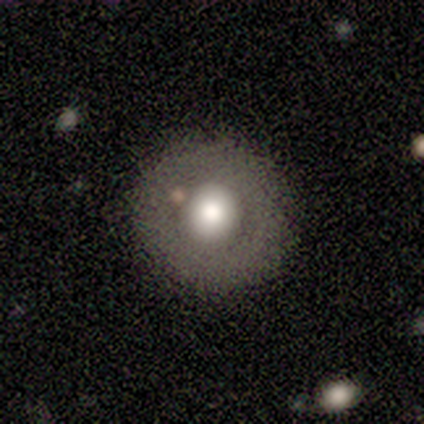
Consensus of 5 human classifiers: Q: Smooth or featured?
A: smooth (80%); runner-up: featured or disk (20%)
Q: How rounded?
A: round (100%)
Q: Merging?
A: none (60%); runner-up: minor disturbance (20%)